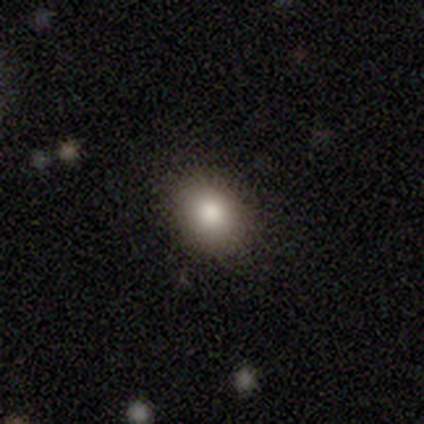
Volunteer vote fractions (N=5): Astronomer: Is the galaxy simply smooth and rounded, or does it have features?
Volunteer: smooth — 80%.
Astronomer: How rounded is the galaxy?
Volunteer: round — 50%, tied with in between at 50%.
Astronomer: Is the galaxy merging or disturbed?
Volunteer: none — 80%.